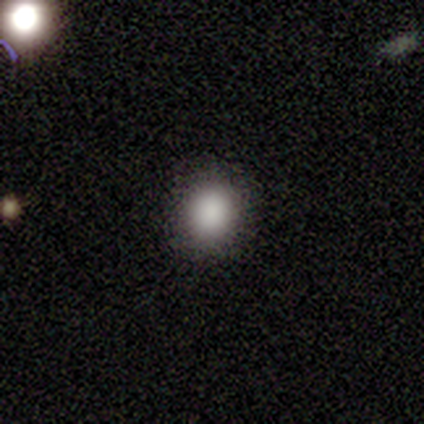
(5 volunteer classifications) Morphology: type=smooth (80%); roundness=round (75%); merging=none (100%).